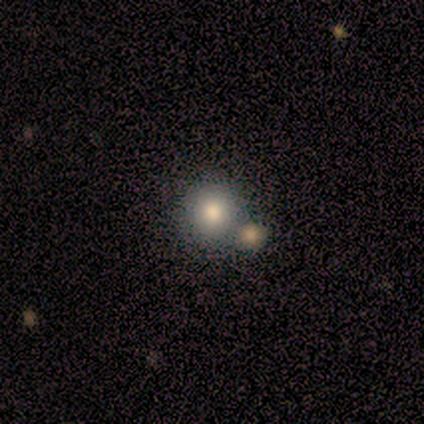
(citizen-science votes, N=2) Overall: smooth (100%). How rounded: round (100%). Merging: none (50%, tied with minor disturbance).